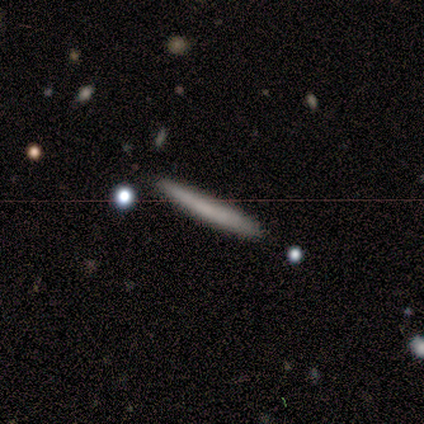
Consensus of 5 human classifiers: smooth-or-featured: smooth: 80% | featured or disk: 20% | star or artifact: 0%
  how-rounded: cigar-shaped: 100% | round: 0% | in between: 0%
  merging: none: 100% | minor disturbance: 0% | major disturbance: 0% | merger: 0%